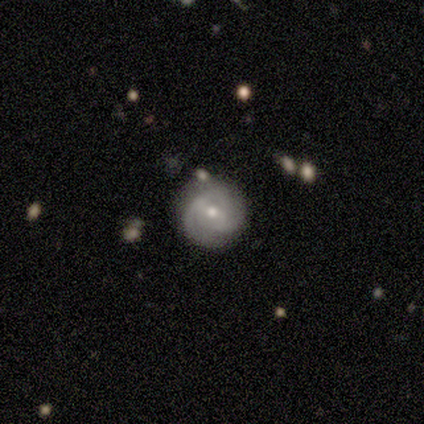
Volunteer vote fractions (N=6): Smooth or featured? smooth (50%, tied with featured or disk)
How rounded? round (100%)
Merging? none (83%)